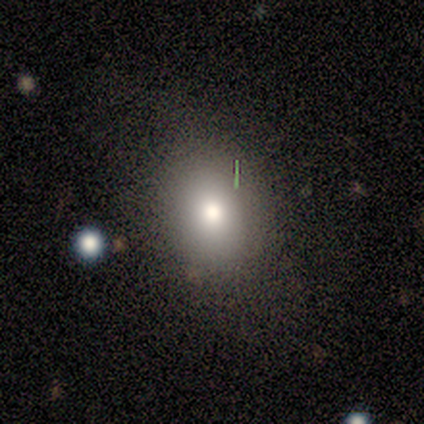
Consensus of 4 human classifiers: A smooth galaxy with no disk features (50%) that is round (50%, tied with in between). Merging: none (100%).